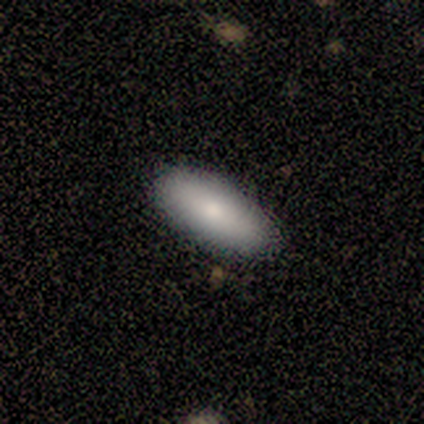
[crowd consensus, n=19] A smooth galaxy with no disk features (89%) that is in between round and cigar-shaped (94%).

Vote fractions:
- Smooth or featured? smooth: 89% / featured or disk: 11% / star or artifact: 0%
- How rounded? in between: 94% / cigar-shaped: 6% / round: 0%
- Merging? none: 84% / minor disturbance: 16% / major disturbance: 0% / merger: 0%